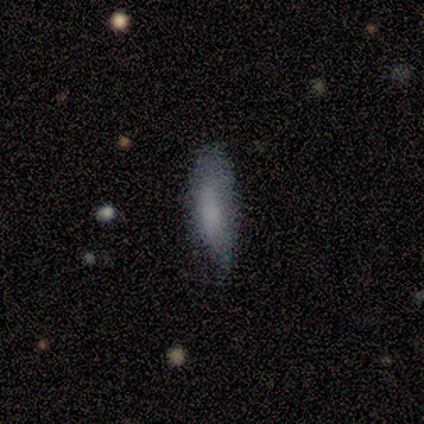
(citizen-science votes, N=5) This is likely a smooth galaxy (60%). How rounded: likely in between (67%). Merging: possibly none (50%).